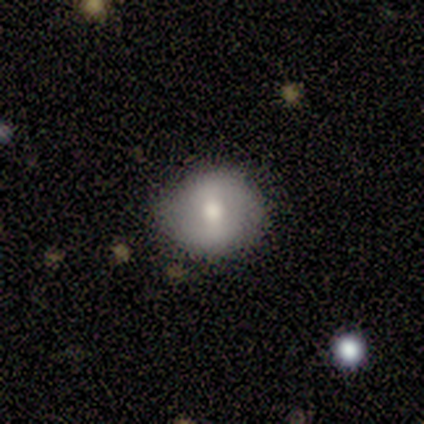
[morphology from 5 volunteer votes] Smooth or featured? 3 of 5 (60%) said featured or disk. Edge-on disk? 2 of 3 (67%) said no. Bar? 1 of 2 (50%, tied with weak) said strong. Spiral arms? 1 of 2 (50%, tied with no) said yes. Spiral winding? 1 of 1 (100%) said loose. Spiral arm count? 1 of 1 (100%) said 2. Bulge size? 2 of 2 (100%) said moderate. Merging? 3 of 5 (60%) said none.